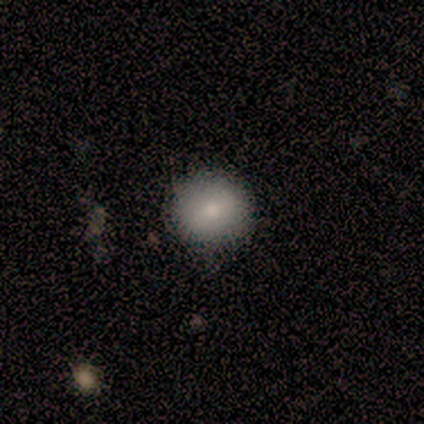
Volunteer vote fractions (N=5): smooth 80%, star or artifact 20%, featured or disk 0%. Down the decision tree: how rounded — round (100%); merging — none (100%).